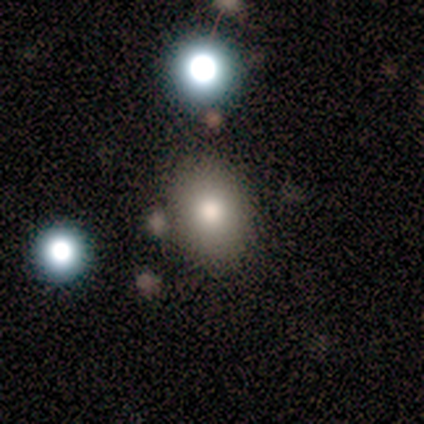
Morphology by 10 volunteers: smooth 100%, featured or disk 0%, star or artifact 0%. Down the decision tree: how rounded — in between (80%); merging — none (70%).